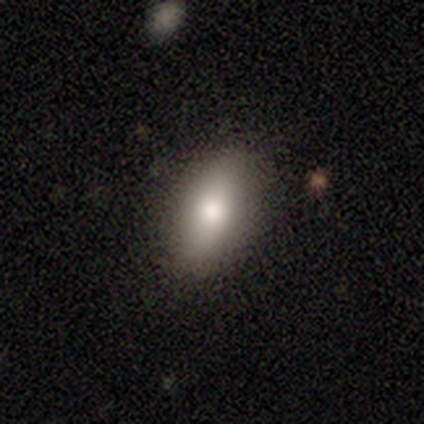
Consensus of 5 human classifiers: Q: Smooth or featured?
A: smooth (60%); runner-up: featured or disk (40%)
Q: How rounded?
A: in between (100%)
Q: Merging?
A: none (100%)